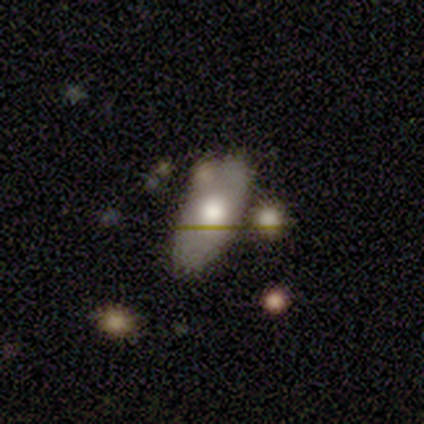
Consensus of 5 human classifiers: Morphology: type=smooth (80%); roundness=in between (100%); merging=none (60%).